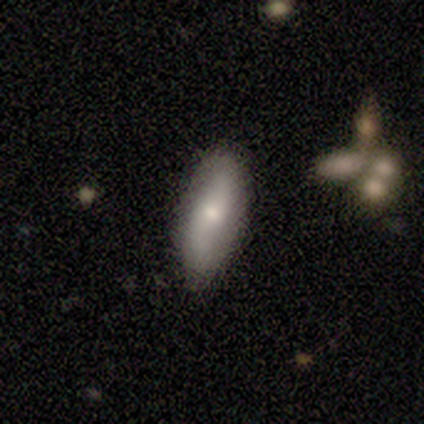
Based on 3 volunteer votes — Overall: smooth (67%; featured or disk 33%). How rounded: in between (50%, tied with cigar-shaped). Merging: none (100%).